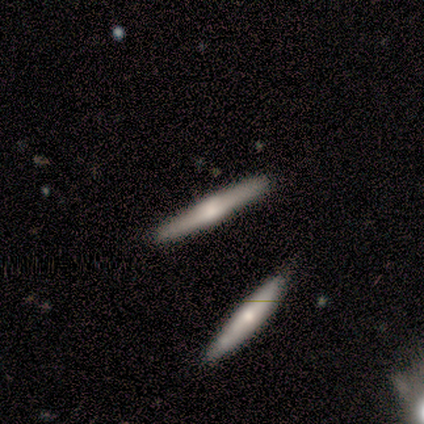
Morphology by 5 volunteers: Overall: featured or disk (80%). Edge-on disk: yes (100%). Edge-on bulge: boxy (50%, tied with rounded). Merging: none (100%).